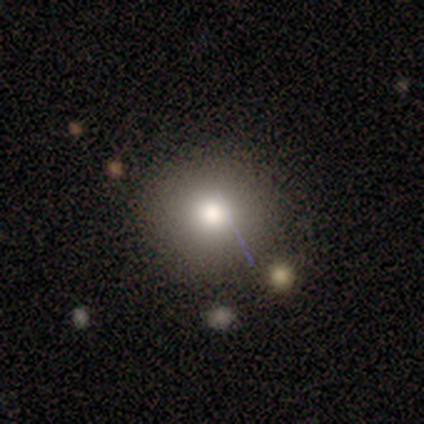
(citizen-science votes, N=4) Morphology: type=smooth (100%); roundness=round (100%); merging=none (50%, tied with minor disturbance).